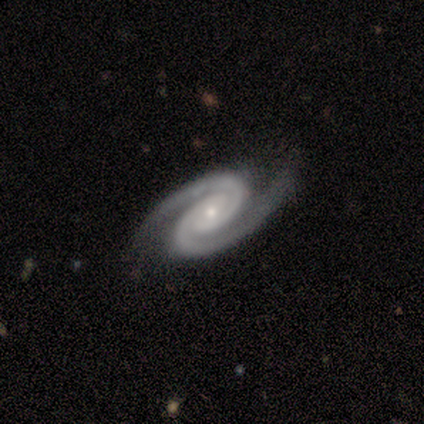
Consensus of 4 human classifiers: Volunteers were most divided on "bulge size": small: 67%, moderate: 33%, dominant: 0%, large: 0%, none: 0%. More confident: smooth or featured — featured or disk (100%); bar — no (100%); spiral arms — yes (100%); spiral winding — tight (100%); spiral arm count — 2 (100%); merging — none (100%); edge-on disk — no (75%).